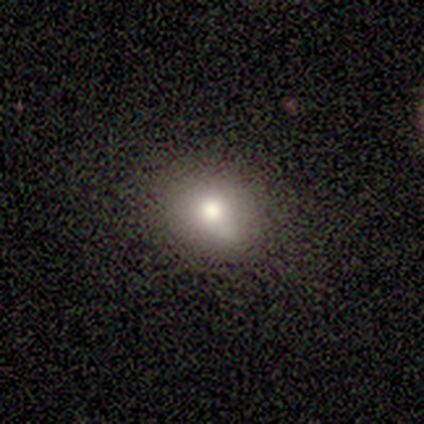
Smooth or featured?
  - smooth: 90% *
  - star or artifact: 10%
  - featured or disk: 0%
How rounded?
  - round: 56% *
  - in between: 44%
  - cigar-shaped: 0%
Merging?
  - none: 56% *
  - minor disturbance: 44%
  - major disturbance: 0%
  - merger: 0%